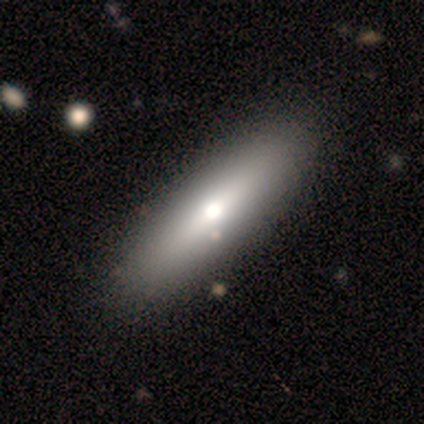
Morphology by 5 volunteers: Q: Smooth or featured?
A: featured or disk (60%); runner-up: smooth (40%)
Q: Edge-on disk?
A: yes (100%)
Q: Edge-on bulge?
A: rounded (100%)
Q: Merging?
A: none (80%); runner-up: minor disturbance (20%)